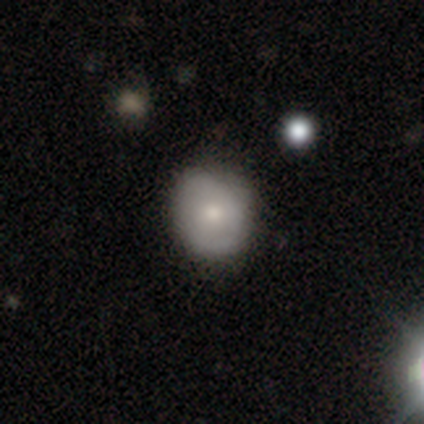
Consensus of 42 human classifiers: Morphology: type=smooth (60%); roundness=round (80%); merging=none (73%).